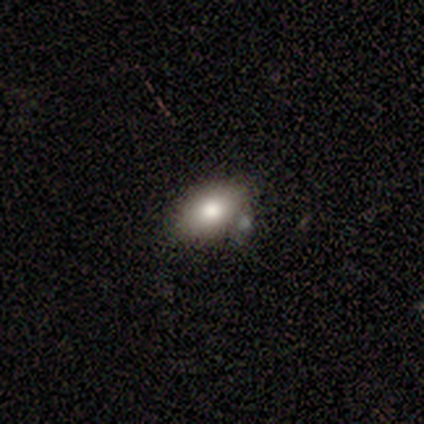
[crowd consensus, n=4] Smooth or featured? smooth (100%)
How rounded? round (50%, tied with in between)
Merging? none (75%)